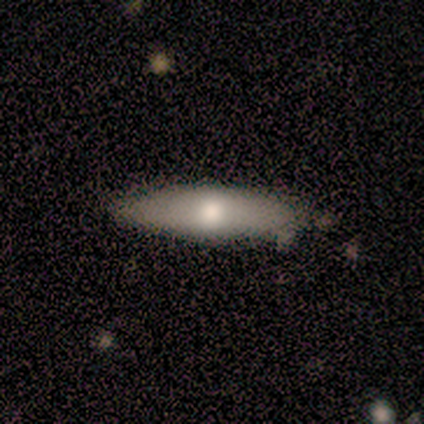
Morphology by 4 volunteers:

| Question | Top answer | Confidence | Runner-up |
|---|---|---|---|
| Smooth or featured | smooth | 100% | — |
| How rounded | in between | 75% | cigar-shaped (25%) |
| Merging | none | 100% | — |